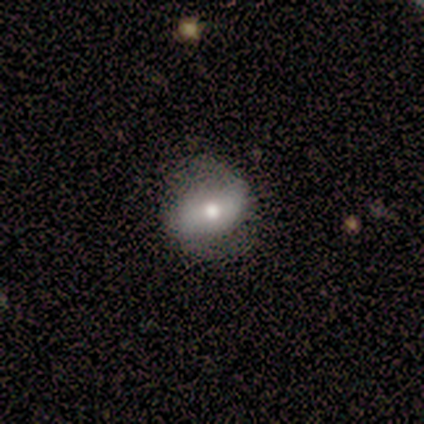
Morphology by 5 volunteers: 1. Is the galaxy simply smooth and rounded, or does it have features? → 60% smooth, 40% featured or disk, 0% star or artifact.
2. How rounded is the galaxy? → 67% in between, 33% round, 0% cigar-shaped.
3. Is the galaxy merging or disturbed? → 60% minor disturbance, 40% none, 0% major disturbance, 0% merger.